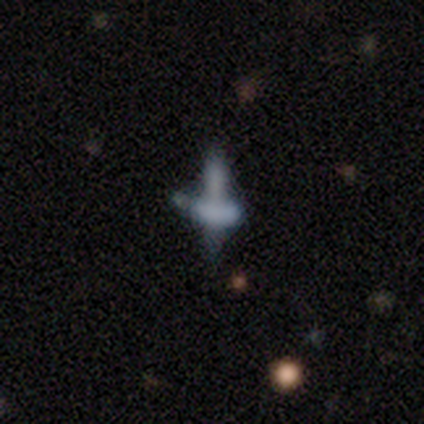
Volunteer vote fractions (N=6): Morphology: type=star or artifact (50%).